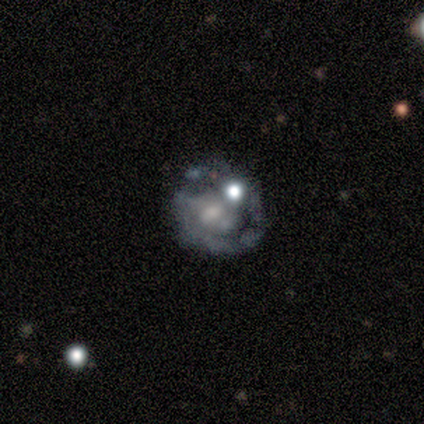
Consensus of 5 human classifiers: This appears to be a featured or disk galaxy (60%) with no bar (100%), no spiral arms (100%) and a small central bulge (50%, tied with none). Merging: none (25%, tied with minor disturbance, major disturbance and merger).